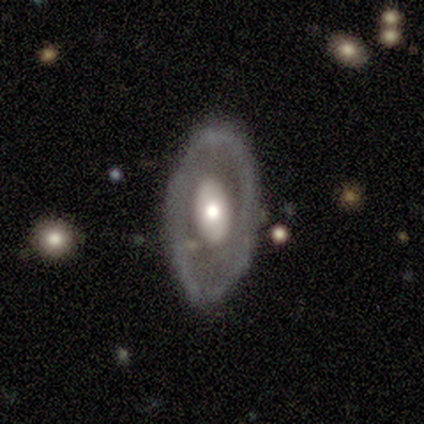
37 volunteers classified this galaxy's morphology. Volunteers were most divided on "smooth or featured": featured or disk: 59%, smooth: 41%, star or artifact: 0%. More confident: edge-on disk — no (91%); spiral arms — no (80%); bar — no (65%); merging — none (62%); bulge size — moderate (50%).